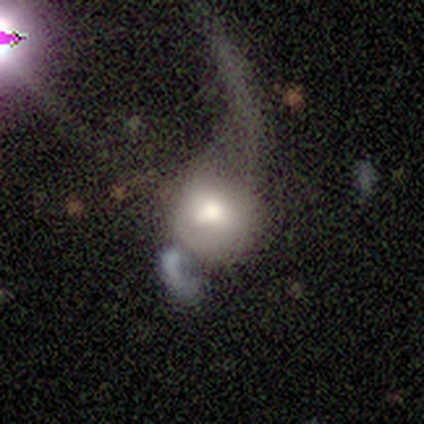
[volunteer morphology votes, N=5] This is clearly a smooth galaxy (80%). How rounded: likely round (75%). Merging: likely major disturbance (60%).